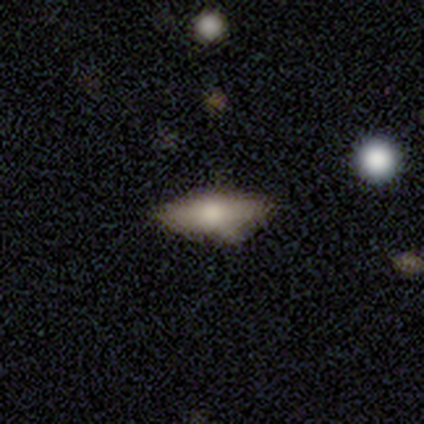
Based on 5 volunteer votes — Smooth or featured? smooth (60%)
How rounded? in between (100%)
Merging? minor disturbance (60%)